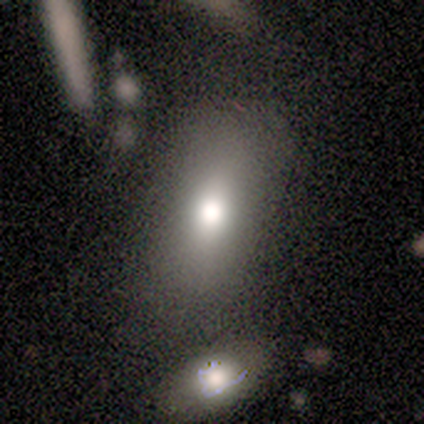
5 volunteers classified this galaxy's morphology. type=smooth (100%); roundness=in between (100%); merging=none (80%).